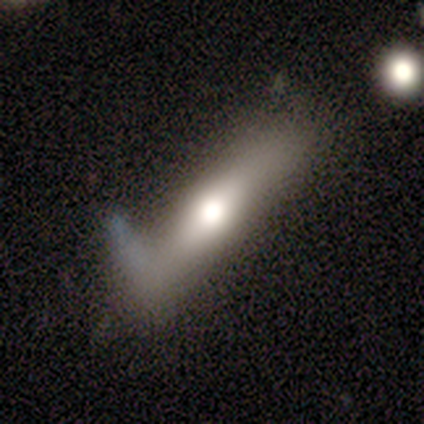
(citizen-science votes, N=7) featured or disk 57%, smooth 29%, star or artifact 14%. Down the decision tree: edge-on disk — yes (100%); edge-on bulge — rounded (100%); merging — minor disturbance (67%).